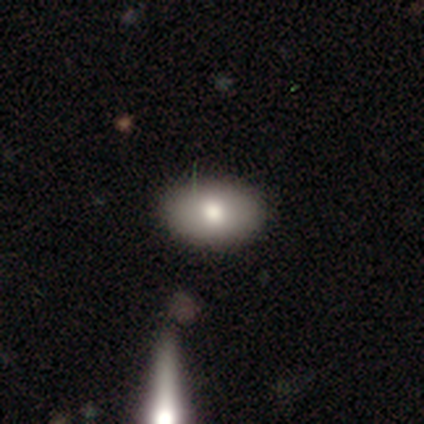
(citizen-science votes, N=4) smooth-or-featured: smooth: 75% | featured or disk: 25% | star or artifact: 0%
  how-rounded: in between: 67% | round: 33% | cigar-shaped: 0%
  merging: none: 100% | minor disturbance: 0% | major disturbance: 0% | merger: 0%